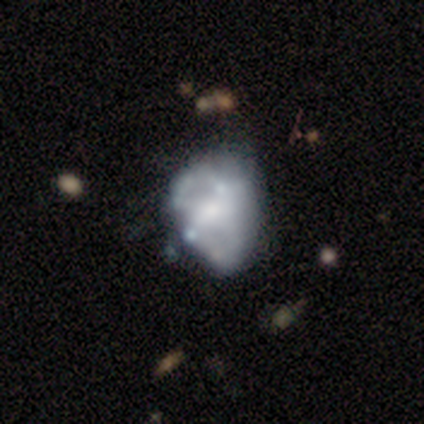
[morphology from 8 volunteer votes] Smooth or featured: featured or disk — 75% (smooth — 12%)
Edge-on disk: no — 100%
Bar: no — 67% (strong — 17%)
Spiral arms: yes — 50% (tied with no — 50%)
Spiral winding: medium — 100%
Spiral arm count: 2 — 67% (can't tell — 33%)
Bulge size: moderate — 50% (small — 33%)
Merging: none — 43% (merger — 29%)